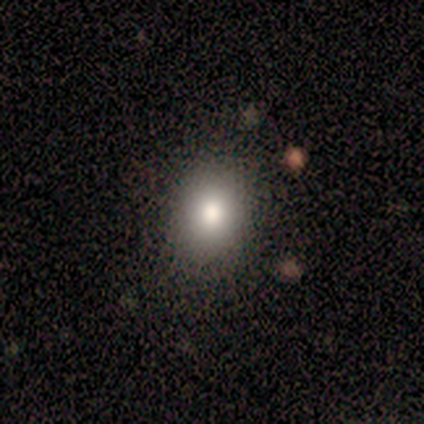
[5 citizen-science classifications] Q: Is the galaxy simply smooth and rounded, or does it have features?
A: smooth — 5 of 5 (100%).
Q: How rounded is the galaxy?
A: round — 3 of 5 (60%).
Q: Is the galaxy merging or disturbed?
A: none — 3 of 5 (60%).